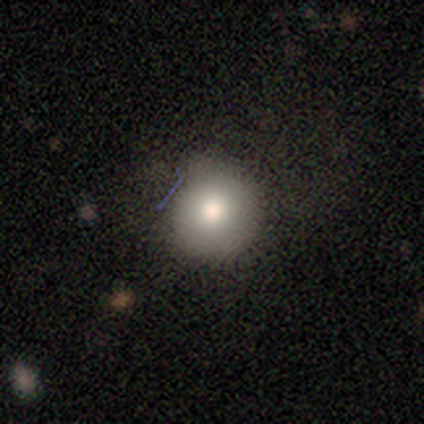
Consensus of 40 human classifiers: A smooth galaxy with no disk features (82%) that is round (91%). Merging: none (92%).